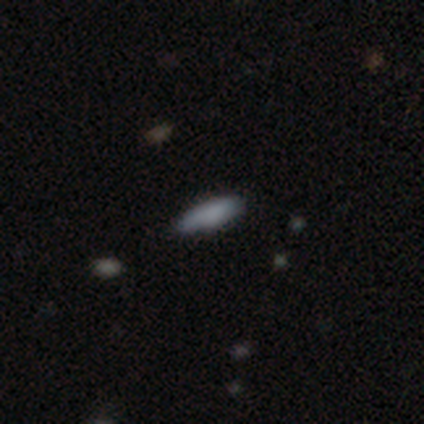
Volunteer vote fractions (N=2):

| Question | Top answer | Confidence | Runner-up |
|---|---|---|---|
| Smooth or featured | smooth | 50% | tied: star or artifact (50%) |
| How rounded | cigar-shaped | 100% | — |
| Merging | none | 100% | — |